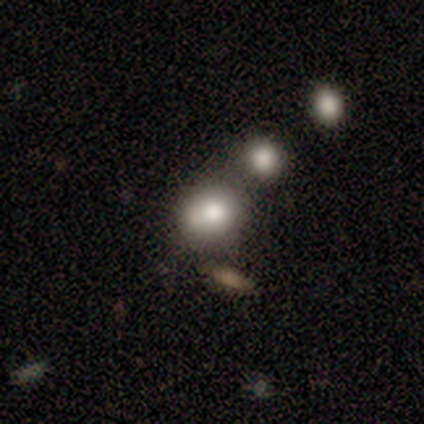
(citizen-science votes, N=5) Smooth or featured?
  - smooth: 60% *
  - star or artifact: 40%
  - featured or disk: 0%
How rounded?
  - round: 67% *
  - in between: 33%
  - cigar-shaped: 0%
Merging?
  - none: 67% *
  - minor disturbance: 33%
  - major disturbance: 0%
  - merger: 0%